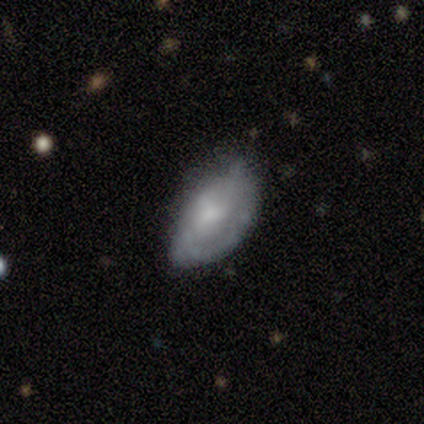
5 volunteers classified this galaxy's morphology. Volunteers were most divided on "smooth or featured": smooth: 60%, featured or disk: 40%, star or artifact: 0%. More confident: how rounded — in between (100%); merging — none (60%).